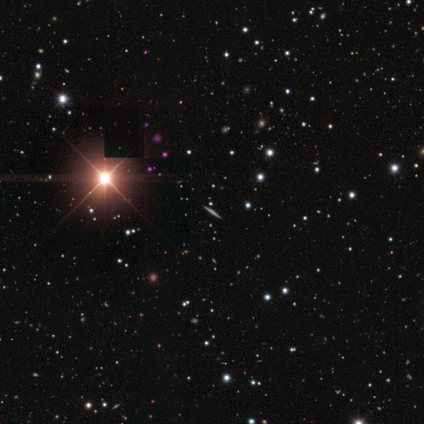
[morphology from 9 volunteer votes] Smooth or featured? star or artifact (67%)